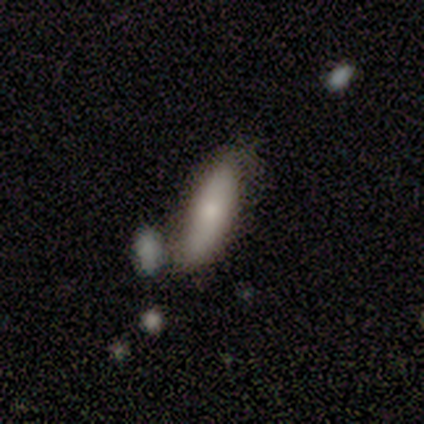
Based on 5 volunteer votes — Volunteers were most divided on "edge-on bulge" (2-way tie): boxy: 50%, rounded: 50%, none: 0%. More confident: edge-on disk — yes (67%); smooth or featured — featured or disk (60%); merging — none (60%).